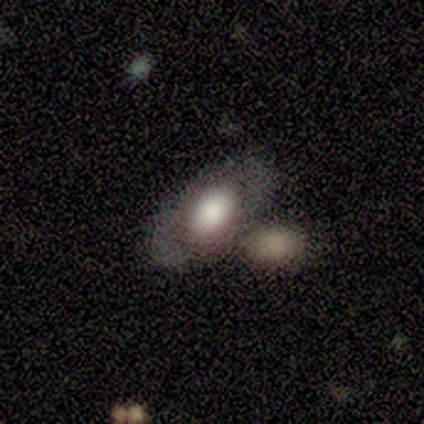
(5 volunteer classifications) smooth-or-featured: smooth: 40% (tied) | featured or disk: 40% (tied) | star or artifact: 20%
  how-rounded: in between: 100% | round: 0% | cigar-shaped: 0%
  merging: merger: 50% | none: 25% | minor disturbance: 25% | major disturbance: 0%